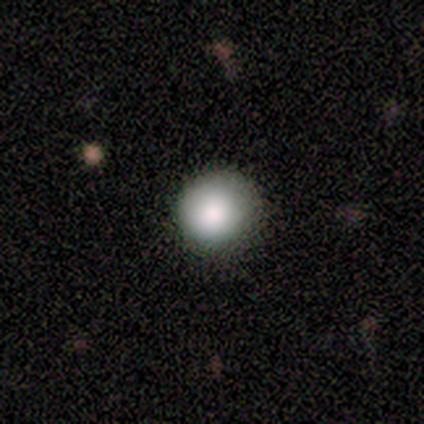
A smooth galaxy with no disk features (60%) that is round (100%).

Vote fractions:
- Smooth or featured? smooth: 60% / featured or disk: 20% / star or artifact: 20%
- How rounded? round: 100% / in between: 0% / cigar-shaped: 0%
- Merging? none: 75% / minor disturbance: 25% / major disturbance: 0% / merger: 0%